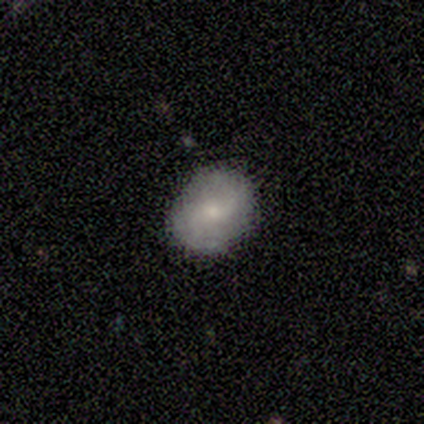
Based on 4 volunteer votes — This appears to be a smooth galaxy with no disk features (75%) that is in between round and cigar-shaped (67%). Merging: none (75%).